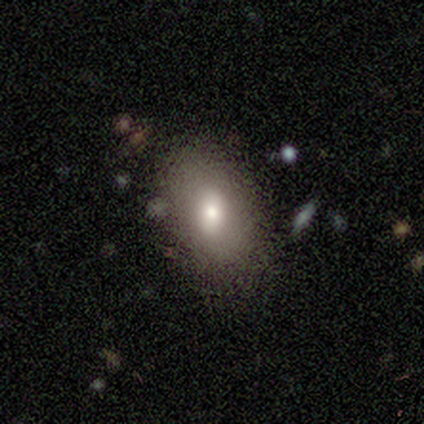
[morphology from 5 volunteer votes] smooth 100%, featured or disk 0%, star or artifact 0%. Down the decision tree: how rounded — in between (80%); merging — none (80%).